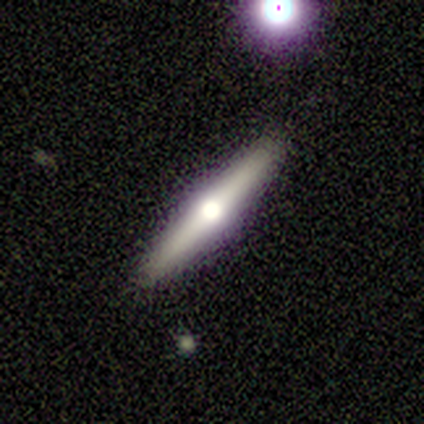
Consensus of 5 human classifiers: Smooth or featured? featured or disk (60%)
Edge-on disk? yes (100%)
Edge-on bulge? rounded (100%)
Merging? none (80%)